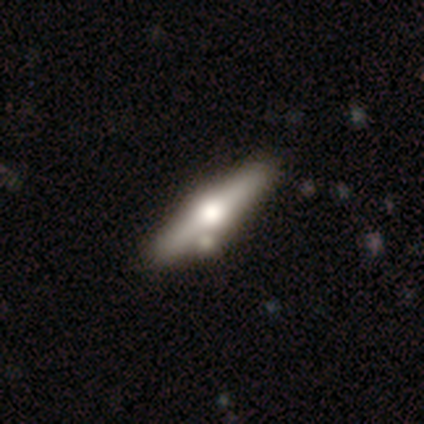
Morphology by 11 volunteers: Smooth or featured?
  - smooth: 55% *
  - featured or disk: 45%
  - star or artifact: 0%
How rounded?
  - cigar-shaped: 83% *
  - in between: 17%
  - round: 0%
Merging?
  - none: 73% *
  - minor disturbance: 18%
  - merger: 9%
  - major disturbance: 0%